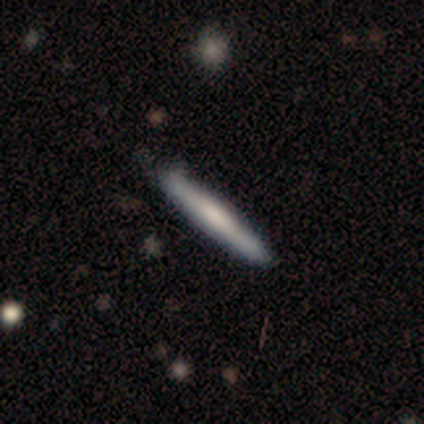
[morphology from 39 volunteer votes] Smooth or featured: smooth — 64% (featured or disk — 28%)
How rounded: cigar-shaped — 96% (round — 4%)
Merging: none — 89% (minor disturbance — 8%)